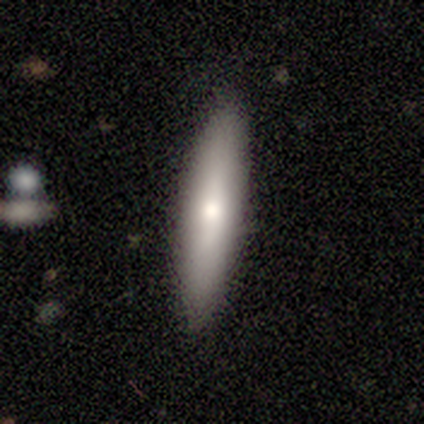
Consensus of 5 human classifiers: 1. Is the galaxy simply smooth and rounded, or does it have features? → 80% smooth, 20% featured or disk, 0% star or artifact.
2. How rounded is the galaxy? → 100% cigar-shaped, 0% round, 0% in between.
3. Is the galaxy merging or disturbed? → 100% none, 0% minor disturbance, 0% major disturbance, 0% merger.